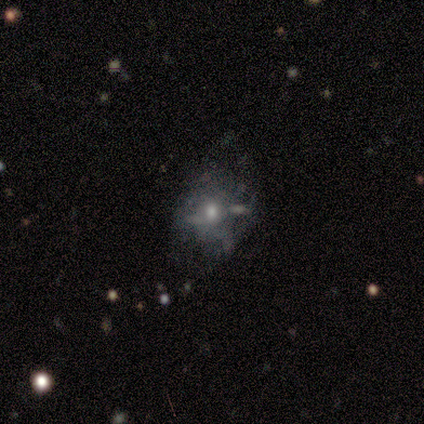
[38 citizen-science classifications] Smooth or featured? 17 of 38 (45%) said featured or disk. Edge-on disk? 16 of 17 (94%) said no. Bar? 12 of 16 (75%) said no. Spiral arms? 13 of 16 (81%) said no. Bulge size? 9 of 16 (56%) said moderate. Merging? 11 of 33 (33%) said minor disturbance.